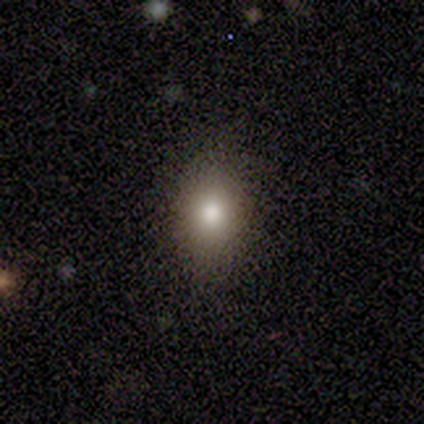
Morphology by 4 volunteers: smooth_or_featured: smooth (p=1.00)
how_rounded: in between (p=0.75) [alt: round p=0.25]
merging: none (p=0.75) [alt: minor disturbance p=0.25]